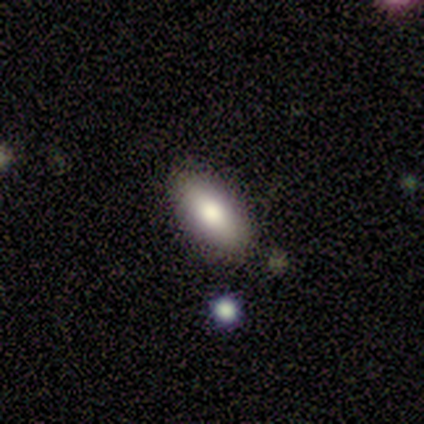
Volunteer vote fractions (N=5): Volunteers were most divided on "how rounded" (2-way tie): in between: 50%, cigar-shaped: 50%, round: 0%. More confident: smooth or featured — smooth (80%); merging — none (75%).